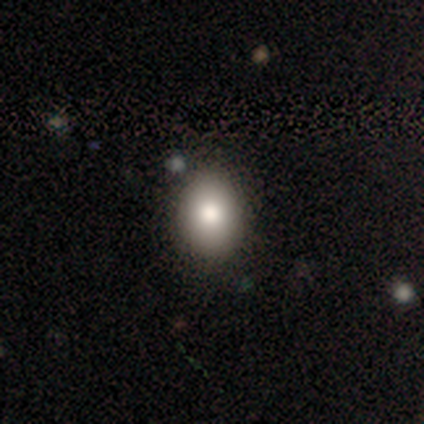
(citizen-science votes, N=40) Morphology: type=smooth (85%); roundness=in between (56%); merging=none (83%).